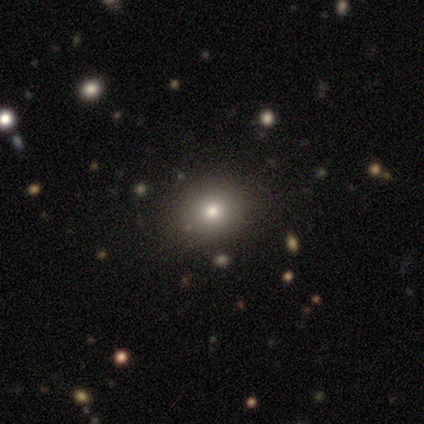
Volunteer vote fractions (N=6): This appears to be a smooth galaxy with no disk features (100%) that is round (100%). Merging: none (100%).